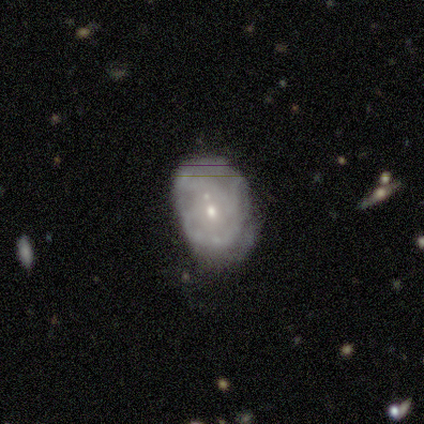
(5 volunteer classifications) This is clearly a featured or disk galaxy (80%). It is clearly not viewed edge-on (100%). Bar: clearly no (100%). Spiral arm pattern: likely yes (75%). Spiral arm count: marginally 1 (33%, tied with 3 and can't tell). Spiral winding: likely loose (67%). Central bulge: possibly moderate (50%, tied with small). Merging: marginally major disturbance (40%, tied with merger).